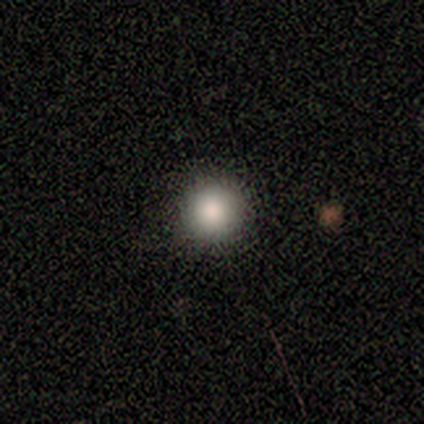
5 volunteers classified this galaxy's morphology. This is likely a smooth galaxy (60%). How rounded: clearly round (100%). Merging: clearly none (100%).